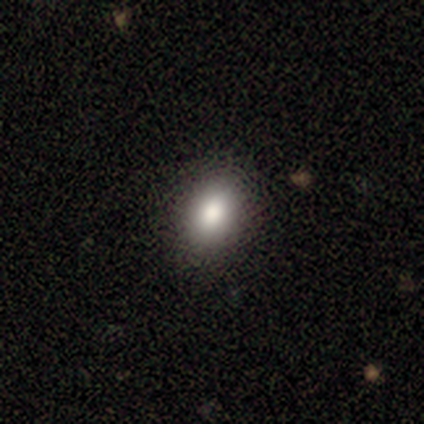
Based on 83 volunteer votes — Volunteers were most divided on "how rounded": in between: 74%, round: 26%, cigar-shaped: 0%. More confident: merging — none (93%); smooth or featured — smooth (82%).